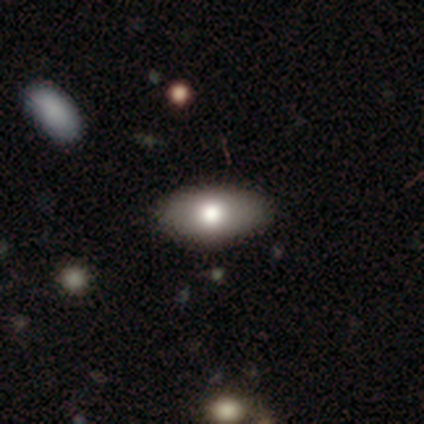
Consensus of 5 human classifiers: Morphology: type=smooth (80%); roundness=in between (100%); merging=none (100%).